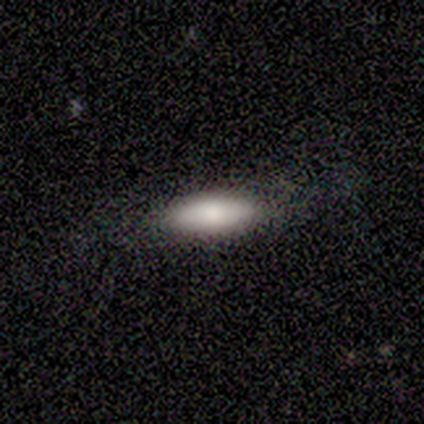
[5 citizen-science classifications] Morphology: type=smooth (100%); roundness=cigar-shaped (60%); merging=none (60%).